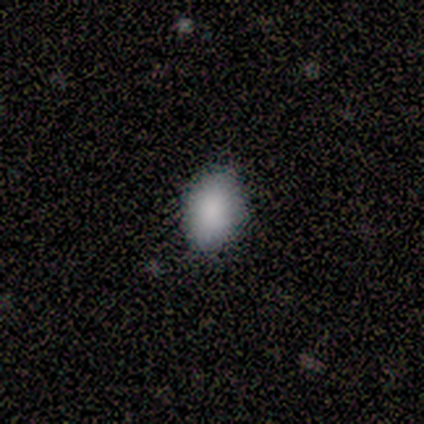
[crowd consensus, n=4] A smooth galaxy with no disk features (75%) that is in between round and cigar-shaped (67%). Merging: none (100%).